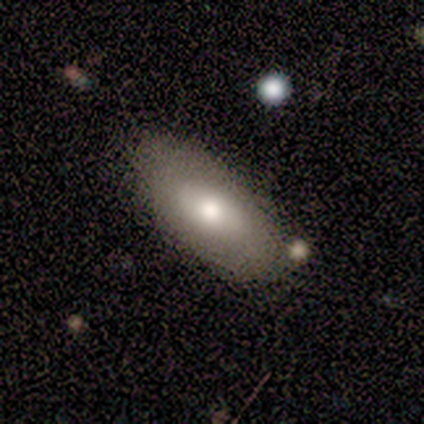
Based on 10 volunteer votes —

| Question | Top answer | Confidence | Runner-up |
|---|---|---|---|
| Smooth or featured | featured or disk | 60% | smooth (40%) |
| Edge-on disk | no | 67% | yes (33%) |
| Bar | no | 100% | — |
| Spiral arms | no | 100% | — |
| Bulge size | moderate | 50% | large (25%) |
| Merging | none | 80% | minor disturbance (20%) |